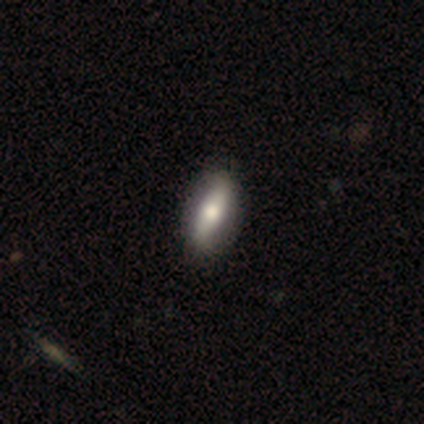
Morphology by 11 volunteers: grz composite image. It shows a featured or disk galaxy (64%) with no bar (75%), 2 (100%) loose (67%) spiral arms (75%) and a moderate central bulge (100%). Merging: none (100%).